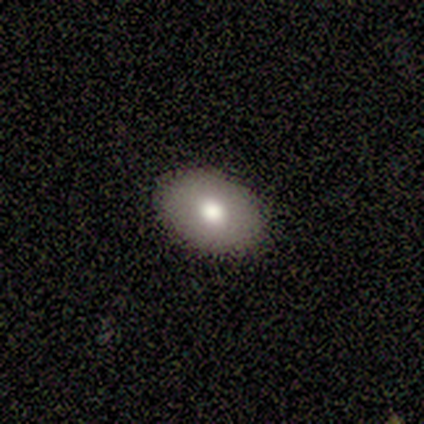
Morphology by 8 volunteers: Q: Smooth or featured?
A: smooth (62%); runner-up: featured or disk (25%)
Q: How rounded?
A: in between (100%)
Q: Merging?
A: none (100%)